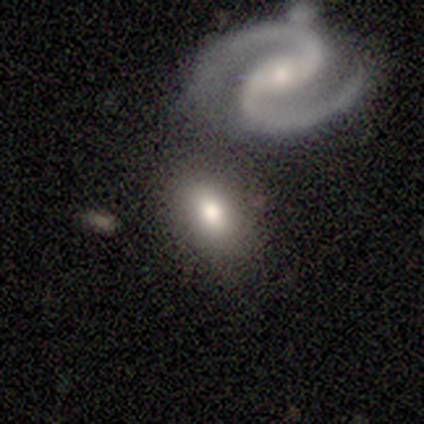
A smooth galaxy with no disk features (55%) that is in between round and cigar-shaped (100%).

Vote fractions:
- Smooth or featured? smooth: 55% / featured or disk: 45% / star or artifact: 0%
- How rounded? in between: 100% / round: 0% / cigar-shaped: 0%
- Merging? none: 55% / merger: 27% / minor disturbance: 18% / major disturbance: 0%